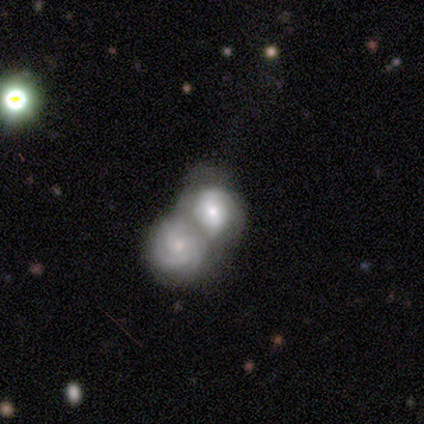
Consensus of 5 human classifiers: A featured or disk galaxy (60%) with no bar (100%), tight (100%) spiral arms (100%) and a moderate central bulge (67%).

Vote fractions:
- Smooth or featured? featured or disk: 60% / smooth: 20% / star or artifact: 20%
- Edge-on disk? no: 100% / yes: 0%
- Bar? no: 100% / strong: 0% / weak: 0%
- Spiral arms? yes: 100% / no: 0%
- Spiral winding? tight: 100% / medium: 0% / loose: 0%
- Spiral arm count? can't tell: 67% / more than 4: 33% / 1: 0% / 2: 0% / 3: 0% / 4: 0%
- Bulge size? moderate: 67% / small: 33% / dominant: 0% / large: 0% / none: 0%
- Merging? merger: 100% / none: 0% / minor disturbance: 0% / major disturbance: 0%